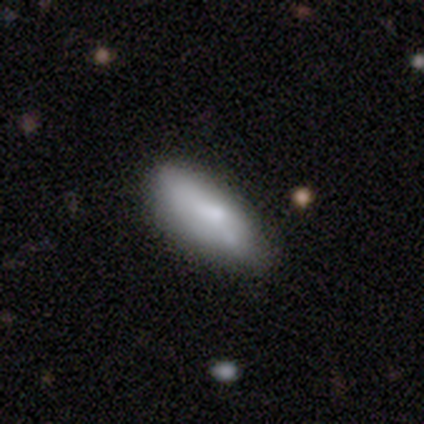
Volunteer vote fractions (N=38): smooth-or-featured: smooth: 68% | featured or disk: 24% | star or artifact: 8%
  how-rounded: in between: 77% | cigar-shaped: 23% | round: 0%
  merging: none: 63% | minor disturbance: 31% | major disturbance: 3% | merger: 3%